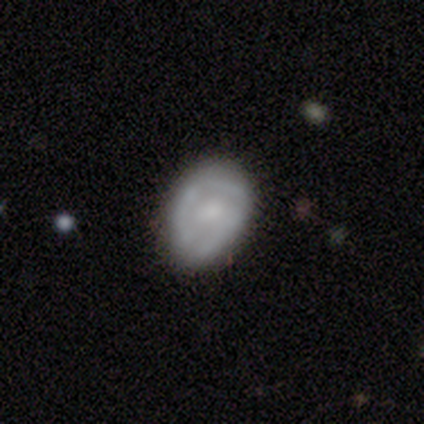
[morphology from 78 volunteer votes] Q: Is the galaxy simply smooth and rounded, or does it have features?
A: featured or disk — 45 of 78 (58%).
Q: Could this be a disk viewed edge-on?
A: no — 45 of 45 (100%).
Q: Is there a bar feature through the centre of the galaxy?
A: no — 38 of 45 (84%).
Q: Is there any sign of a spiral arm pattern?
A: no — 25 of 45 (56%).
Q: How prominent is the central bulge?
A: moderate — 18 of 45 (40%).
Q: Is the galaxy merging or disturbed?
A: none — 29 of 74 (39%).